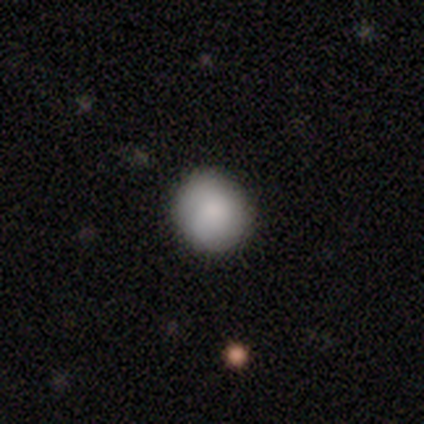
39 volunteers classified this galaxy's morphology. A smooth galaxy with no disk features (95%) that is round (97%). Merging: none (97%).